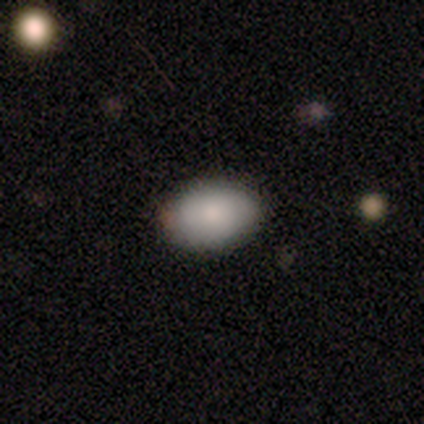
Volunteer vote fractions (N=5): Smooth or featured: smooth — 100%
How rounded: in between — 80% (round — 20%)
Merging: none — 100%